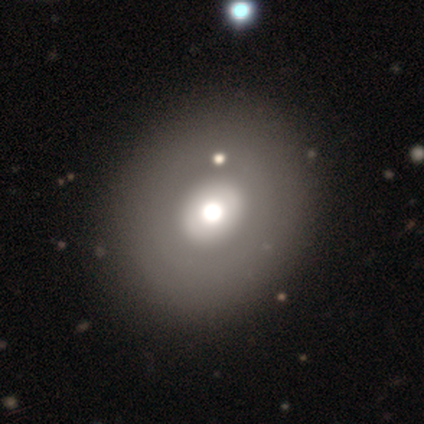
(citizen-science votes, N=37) Smooth or featured?
  - smooth: 51% *
  - featured or disk: 41%
  - star or artifact: 8%
How rounded?
  - round: 58% *
  - in between: 42%
  - cigar-shaped: 0%
Merging?
  - none: 68% *
  - minor disturbance: 0%
  - major disturbance: 0%
  - merger: 0%